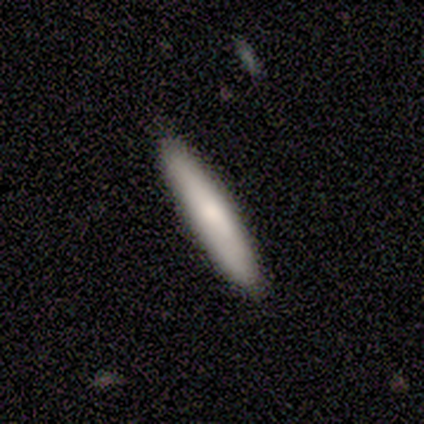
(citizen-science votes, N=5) smooth 100%, featured or disk 0%, star or artifact 0%. Down the decision tree: how rounded — cigar-shaped (100%); merging — none (100%).